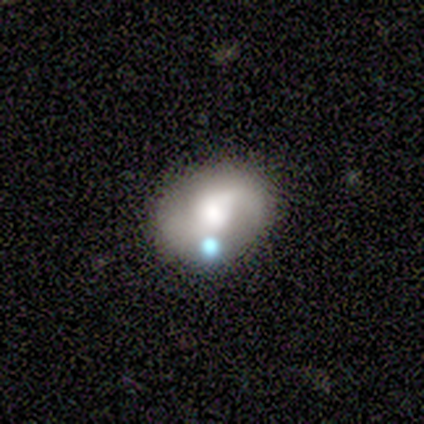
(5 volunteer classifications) featured or disk 60%, smooth 40%, star or artifact 0%. Down the decision tree: edge-on disk — no (100%); bar — no (67%); spiral arms — yes (67%); spiral arm count — 2 (100%); spiral winding — medium (100%); bulge size — large (67%); merging — none (60%).